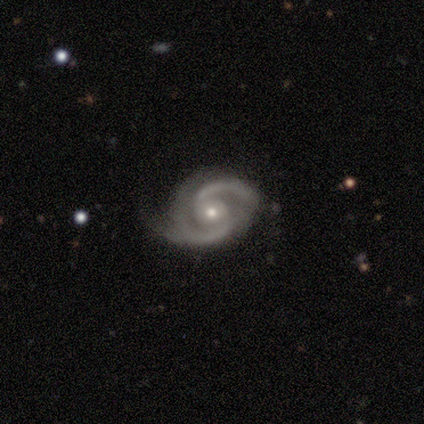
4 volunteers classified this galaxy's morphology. This appears to be a featured or disk galaxy (100%) with no bar (75%), 2 (100%) tight (50%) spiral arms (100%) and a moderate central bulge (50%, tied with small). Merging: none (50%, tied with minor disturbance).